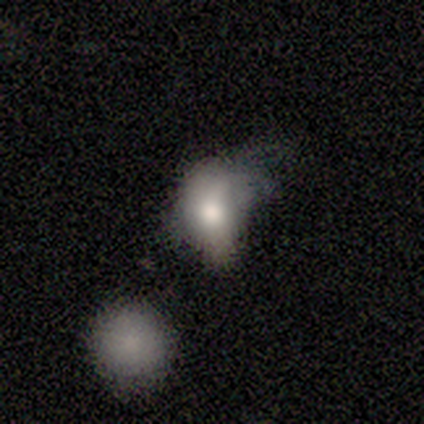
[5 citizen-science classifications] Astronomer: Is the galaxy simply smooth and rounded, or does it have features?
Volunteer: smooth — 80%.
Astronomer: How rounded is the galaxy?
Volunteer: round — 50%, tied with in between at 50%.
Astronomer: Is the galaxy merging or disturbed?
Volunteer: major disturbance — 50%.